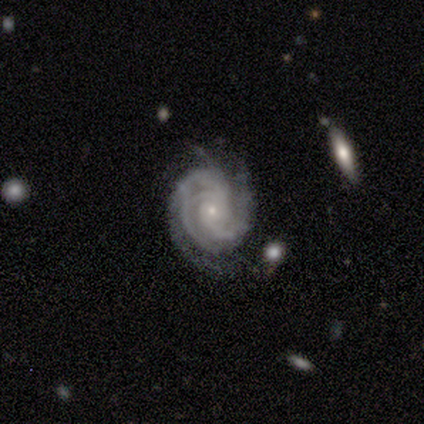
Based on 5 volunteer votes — A featured or disk galaxy (100%) with no bar (80%), 3 (40%) tight (60%) spiral arms (100%) and a small central bulge (80%).

Vote fractions:
- Smooth or featured? featured or disk: 100% / smooth: 0% / star or artifact: 0%
- Edge-on disk? no: 100% / yes: 0%
- Bar? no: 80% / weak: 20% / strong: 0%
- Spiral arms? yes: 100% / no: 0%
- Spiral winding? tight: 60% / medium: 40% / loose: 0%
- Spiral arm count? 3: 40% / 2: 20% / 4: 20% / can't tell: 20% / 1: 0% / more than 4: 0%
- Bulge size? small: 80% / moderate: 20% / dominant: 0% / large: 0% / none: 0%
- Merging? none: 80% / merger: 20% / minor disturbance: 0% / major disturbance: 0%